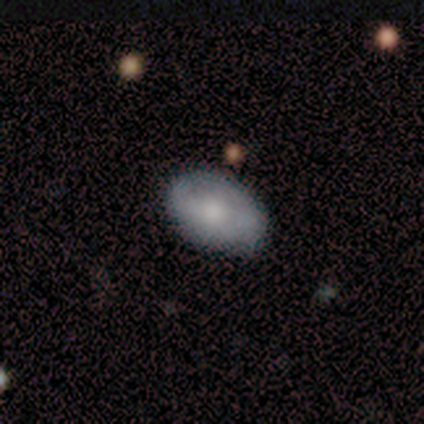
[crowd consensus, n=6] This is clearly a smooth galaxy (83%). How rounded: clearly in between (80%). Merging: clearly none (83%).